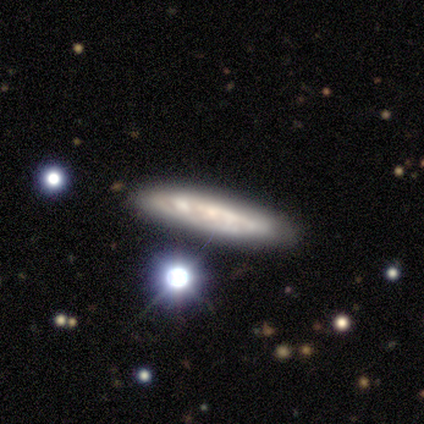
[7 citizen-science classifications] Q: Smooth or featured?
A: smooth (71%); runner-up: featured or disk (29%)
Q: How rounded?
A: cigar-shaped (80%); runner-up: in between (20%)
Q: Merging?
A: none (86%); runner-up: major disturbance (14%)